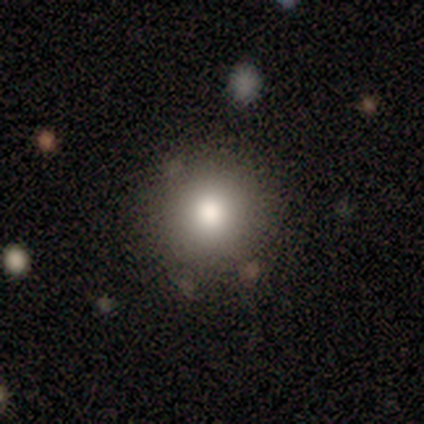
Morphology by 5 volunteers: Smooth or featured? smooth (80%)
How rounded? round (75%)
Merging? none (60%)